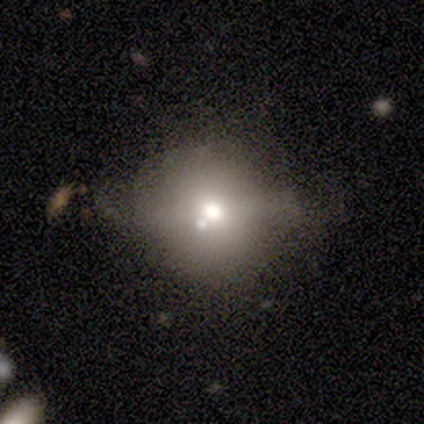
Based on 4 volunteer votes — Smooth or featured? 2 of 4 (50%) said star or artifact.